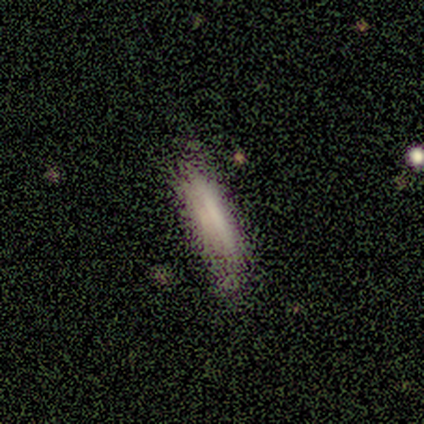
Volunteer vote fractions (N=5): smooth_or_featured: smooth (p=0.60) [alt: featured or disk p=0.20]
how_rounded: in between (p=0.67) [alt: cigar-shaped p=0.33]
merging: none (p=0.50) [tied with: minor disturbance p=0.50]